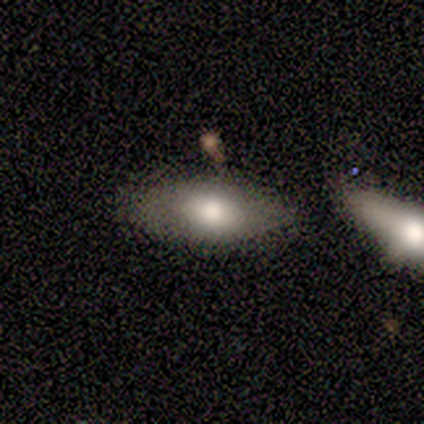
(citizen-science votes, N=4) Smooth or featured? 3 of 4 (75%) said smooth. How rounded? 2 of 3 (67%) said in between. Merging? 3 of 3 (100%) said none.